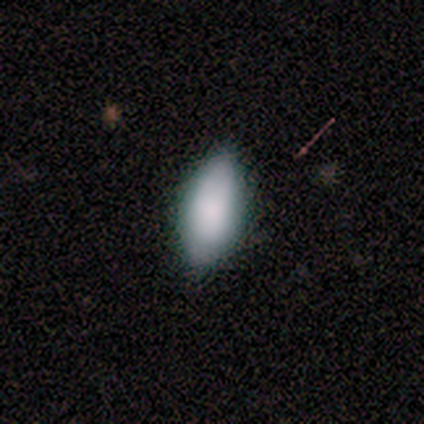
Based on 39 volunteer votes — smooth-or-featured: smooth: 85% | star or artifact: 13% | featured or disk: 3%
  how-rounded: in between: 94% | cigar-shaped: 6% | round: 0%
  merging: none: 76% | minor disturbance: 21% | major disturbance: 3% | merger: 0%